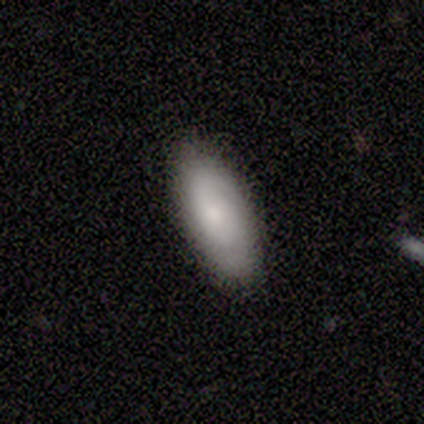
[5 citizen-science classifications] A smooth galaxy with no disk features (60%) that is in between round and cigar-shaped (100%).

Vote fractions:
- Smooth or featured? smooth: 60% / featured or disk: 40% / star or artifact: 0%
- How rounded? in between: 100% / round: 0% / cigar-shaped: 0%
- Merging? none: 100% / minor disturbance: 0% / major disturbance: 0% / merger: 0%